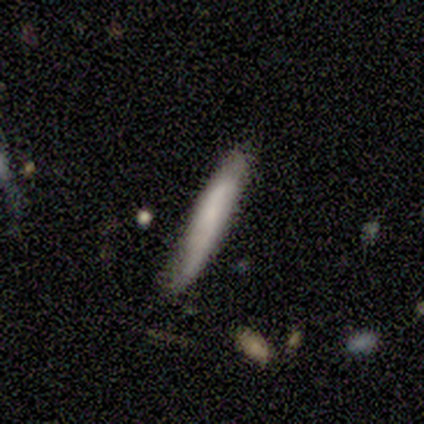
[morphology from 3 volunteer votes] smooth 100%, featured or disk 0%, star or artifact 0%. Down the decision tree: how rounded — cigar-shaped (100%); merging — none (100%).